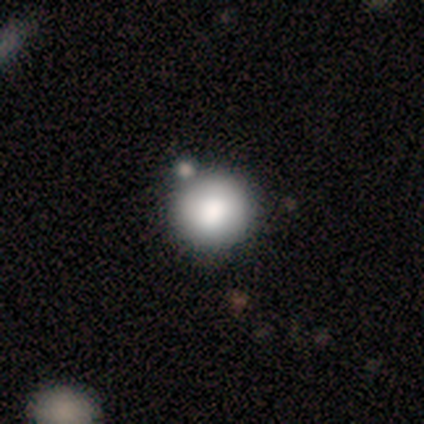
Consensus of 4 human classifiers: This is likely a smooth galaxy (75%). How rounded: clearly round (100%). Merging: clearly none (100%).